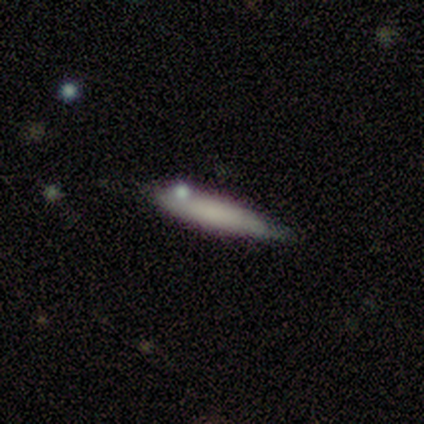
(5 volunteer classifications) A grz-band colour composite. It shows a smooth galaxy with no disk features (80%) that is cigar-shaped (75%). Merging: none (80%).